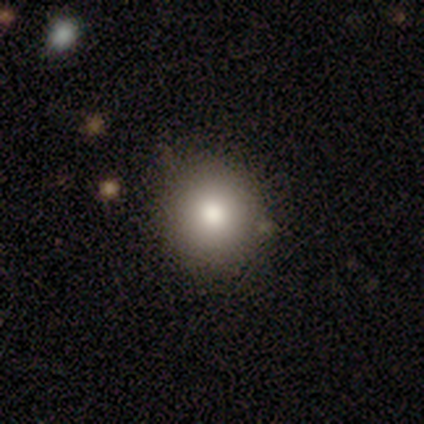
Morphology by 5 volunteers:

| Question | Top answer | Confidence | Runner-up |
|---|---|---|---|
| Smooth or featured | smooth | 80% | featured or disk (20%) |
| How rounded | round | 75% | in between (25%) |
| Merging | none | 80% | minor disturbance (20%) |